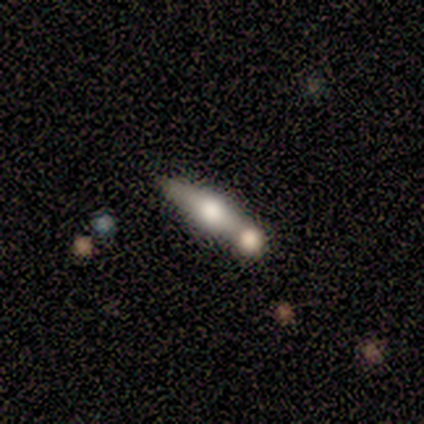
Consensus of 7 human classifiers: Smooth or featured? featured or disk (57%)
Edge-on disk? yes (75%)
Edge-on bulge? rounded (100%)
Merging? merger (71%)